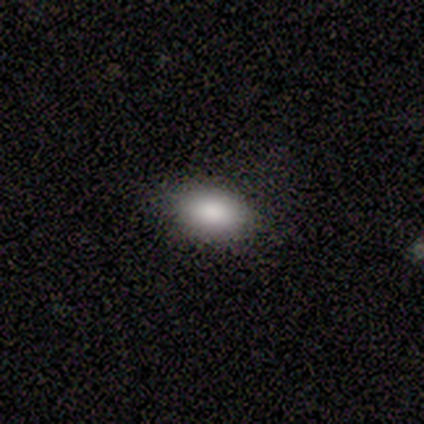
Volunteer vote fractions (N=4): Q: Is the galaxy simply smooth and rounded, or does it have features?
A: smooth — 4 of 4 (100%).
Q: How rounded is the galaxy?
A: in between — 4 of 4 (100%).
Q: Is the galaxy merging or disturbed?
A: none — 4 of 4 (100%).